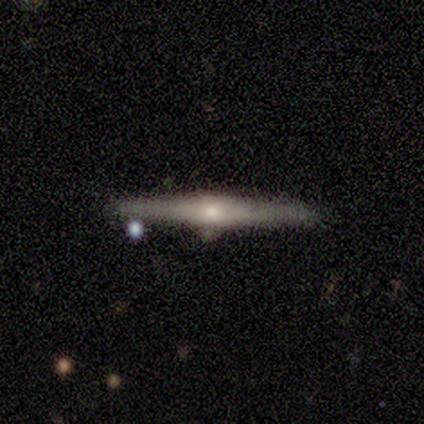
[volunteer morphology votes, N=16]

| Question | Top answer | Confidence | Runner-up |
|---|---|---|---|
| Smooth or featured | featured or disk | 81% | star or artifact (12%) |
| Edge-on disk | yes | 100% | — |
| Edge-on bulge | rounded | 92% | boxy (8%) |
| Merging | none | 86% | minor disturbance (14%) |